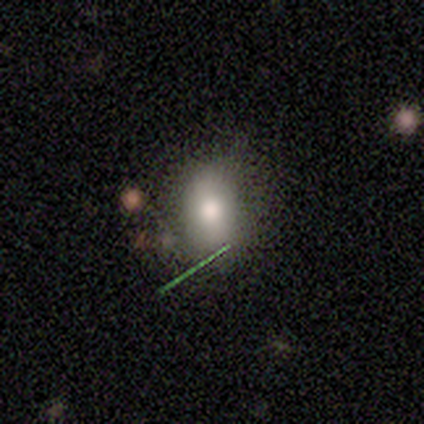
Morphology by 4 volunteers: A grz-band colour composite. It shows a smooth galaxy with no disk features (75%) that is in between round and cigar-shaped (67%). Merging: none (75%).